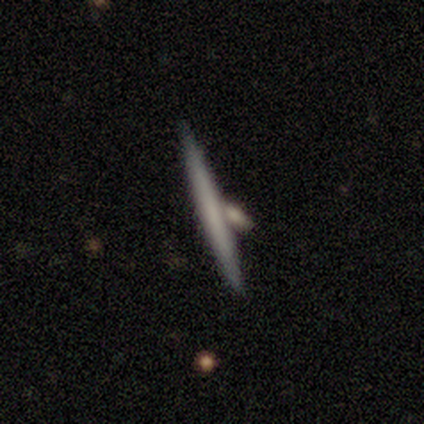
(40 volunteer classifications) Overall: smooth (52%; featured or disk 42%). How rounded: cigar-shaped (100%). Merging: none (53%; merger 26%).